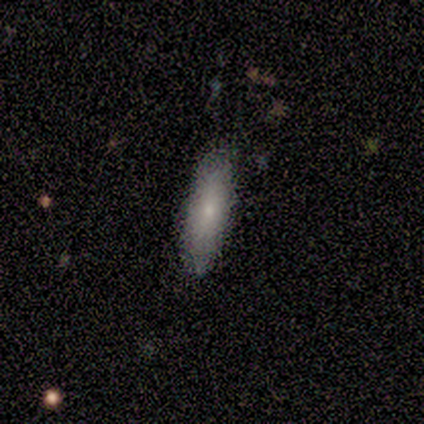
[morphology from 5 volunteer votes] smooth 80%, star or artifact 20%, featured or disk 0%. Down the decision tree: how rounded — in between (75%); merging — none (100%).